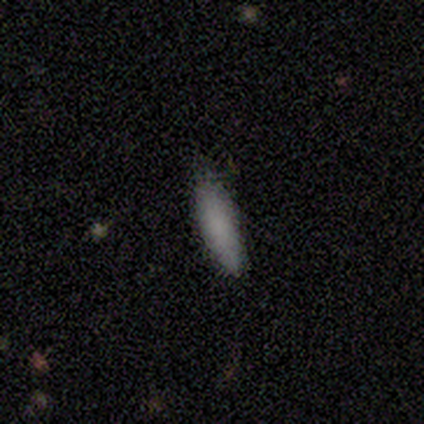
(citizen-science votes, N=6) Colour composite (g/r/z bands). It shows a smooth galaxy with no disk features (83%) that is cigar-shaped (60%). Merging: none (80%).